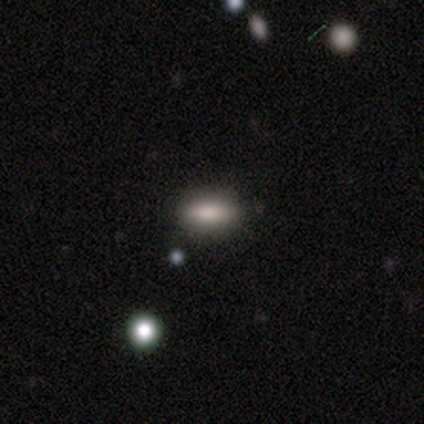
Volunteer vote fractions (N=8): Overall: smooth (100%). How rounded: in between (62%; cigar-shaped 38%). Merging: none (100%).